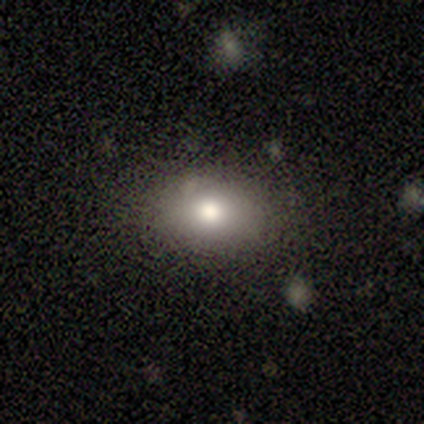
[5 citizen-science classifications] Q: Smooth or featured?
A: smooth (60%); runner-up: star or artifact (40%)
Q: How rounded?
A: in between (67%); runner-up: round (33%)
Q: Merging?
A: none (67%); runner-up: minor disturbance (33%)